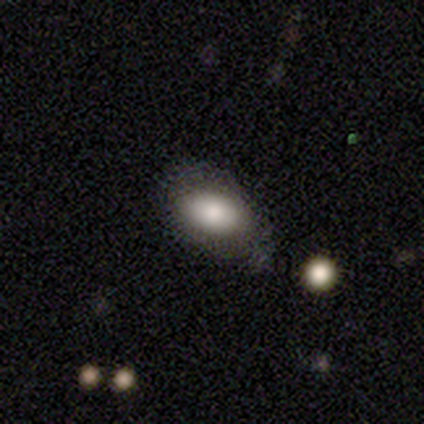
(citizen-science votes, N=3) Smooth or featured? smooth (67%)
How rounded? in between (100%)
Merging? none (100%)